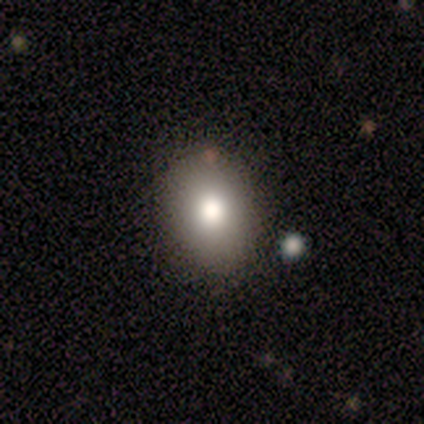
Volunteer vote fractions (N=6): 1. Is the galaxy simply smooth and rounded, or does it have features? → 83% smooth, 17% featured or disk, 0% star or artifact.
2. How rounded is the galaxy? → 60% in between, 40% round, 0% cigar-shaped.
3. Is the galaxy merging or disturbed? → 83% none, 17% minor disturbance, 0% major disturbance, 0% merger.